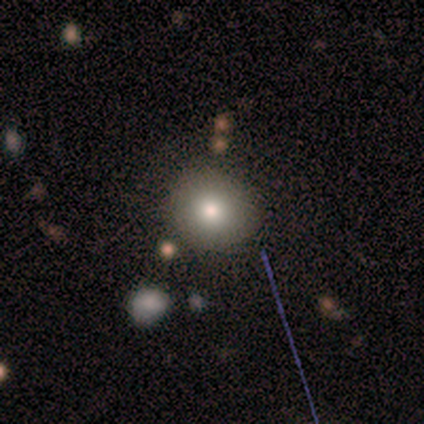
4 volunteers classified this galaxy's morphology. A smooth galaxy with no disk features (50%) that is round (100%).

Vote fractions:
- Smooth or featured? smooth: 50% / featured or disk: 25% / star or artifact: 25%
- How rounded? round: 100% / in between: 0% / cigar-shaped: 0%
- Merging? none: 100% / minor disturbance: 0% / major disturbance: 0% / merger: 0%